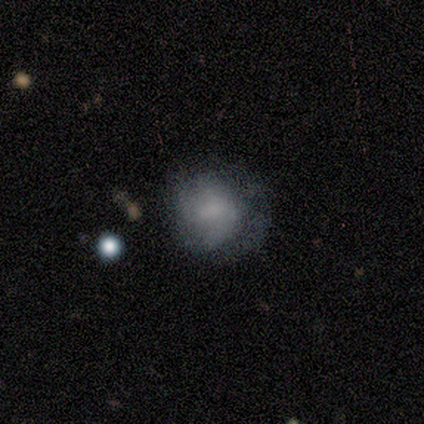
Smooth or featured? featured or disk (60%)
Edge-on disk? no (100%)
Bar? no (67%)
Spiral arms? yes (67%)
Spiral winding? tight (50%, tied with medium)
Spiral arm count? 2 (50%, tied with can't tell)
Bulge size? moderate (33%, tied with small and none)
Merging? minor disturbance (80%)